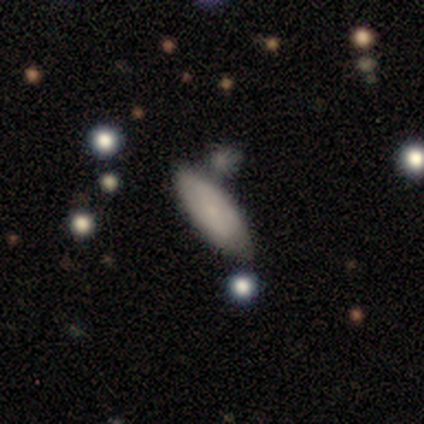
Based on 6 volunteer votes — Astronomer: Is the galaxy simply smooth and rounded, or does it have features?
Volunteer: smooth — 67%.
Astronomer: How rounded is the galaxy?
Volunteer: in between — 75%.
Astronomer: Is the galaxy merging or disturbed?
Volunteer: none — 67%.